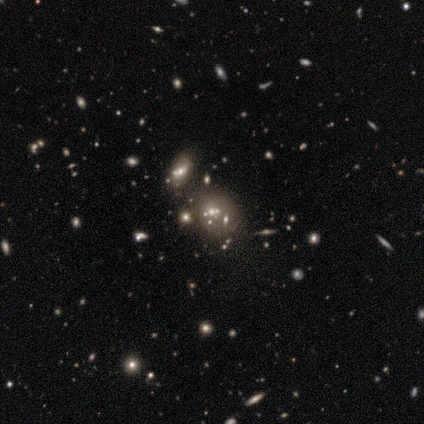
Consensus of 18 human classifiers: Smooth or featured? 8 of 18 (44%) said star or artifact.